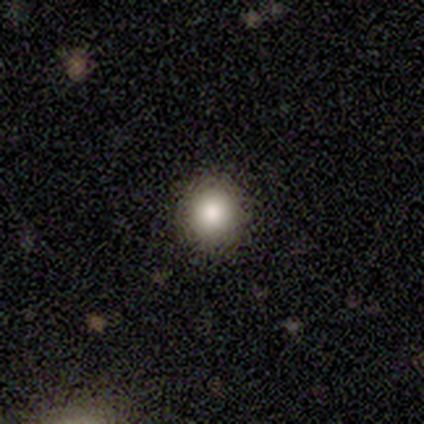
Overall: smooth (60%; featured or disk 20%). How rounded: round (100%). Merging: none (100%).